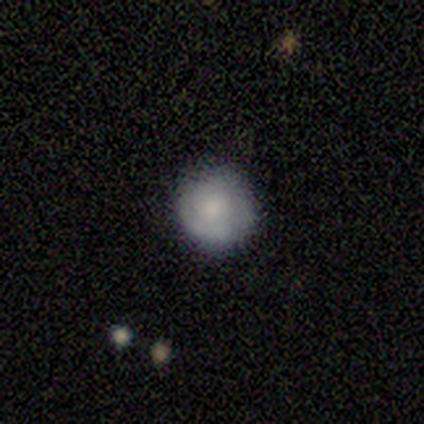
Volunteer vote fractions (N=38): Q: Smooth or featured?
A: smooth (53%); runner-up: featured or disk (45%)
Q: How rounded?
A: round (95%); runner-up: in between (5%)
Q: Merging?
A: none (81%); runner-up: minor disturbance (14%)